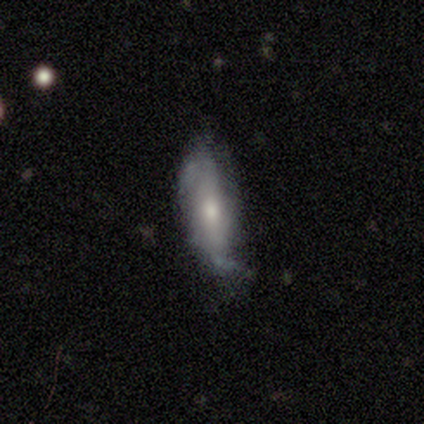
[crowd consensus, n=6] Overall: featured or disk (83%). Edge-on disk: no (60%; yes 40%). Bar: no (67%; strong 33%). Spiral arms: yes (67%; no 33%). Spiral arm count: 2 (100%). Spiral winding: medium (50%, tied with loose). Bulge size: large (33%, tied with moderate and none). Merging: minor disturbance (67%; none 33%).